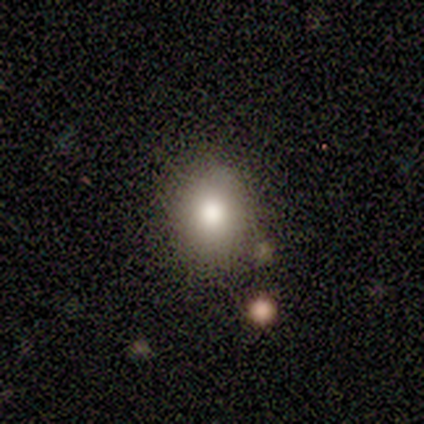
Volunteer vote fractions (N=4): Overall: smooth (75%). How rounded: round (100%). Merging: none (100%).